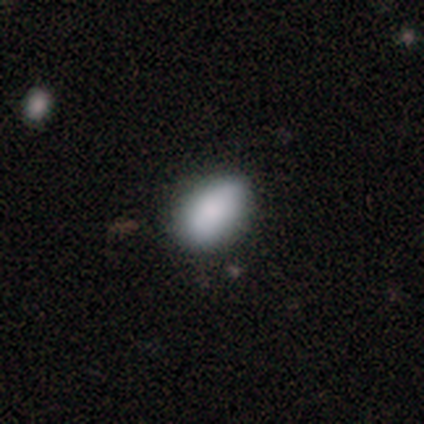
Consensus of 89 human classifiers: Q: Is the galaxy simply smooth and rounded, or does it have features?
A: smooth — 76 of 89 (85%).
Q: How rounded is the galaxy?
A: in between — 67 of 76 (88%).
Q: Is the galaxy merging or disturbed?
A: none — 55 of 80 (69%).